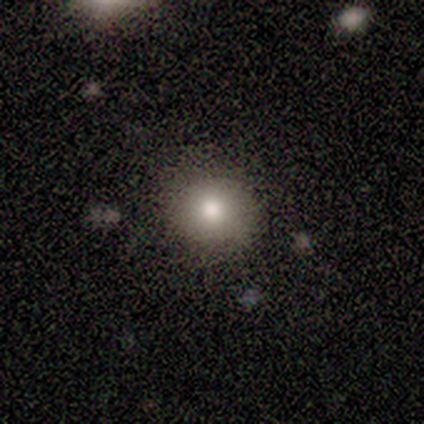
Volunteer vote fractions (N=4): A smooth galaxy with no disk features (75%) that is round (100%).

Vote fractions:
- Smooth or featured? smooth: 75% / featured or disk: 25% / star or artifact: 0%
- How rounded? round: 100% / in between: 0% / cigar-shaped: 0%
- Merging? none: 100% / minor disturbance: 0% / major disturbance: 0% / merger: 0%